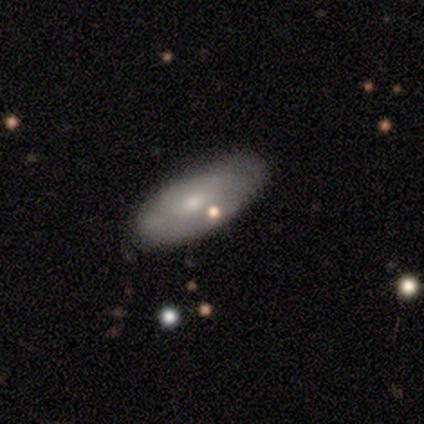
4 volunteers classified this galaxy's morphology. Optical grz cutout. It shows a smooth galaxy with no disk features (50%, tied with featured or disk) that is in between round and cigar-shaped (100%). Merging: none (75%).